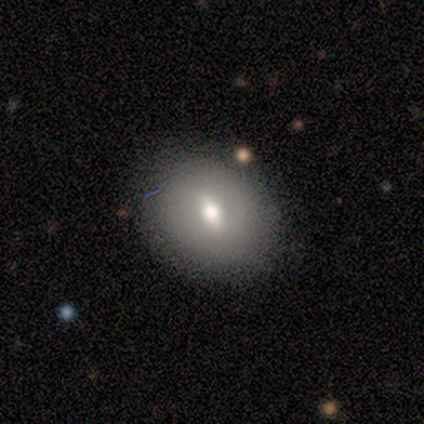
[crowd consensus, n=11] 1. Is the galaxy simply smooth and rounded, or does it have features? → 64% smooth, 27% featured or disk, 9% star or artifact.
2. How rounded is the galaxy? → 57% in between, 43% round, 0% cigar-shaped.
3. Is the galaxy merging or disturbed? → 70% none, 30% minor disturbance, 0% major disturbance, 0% merger.